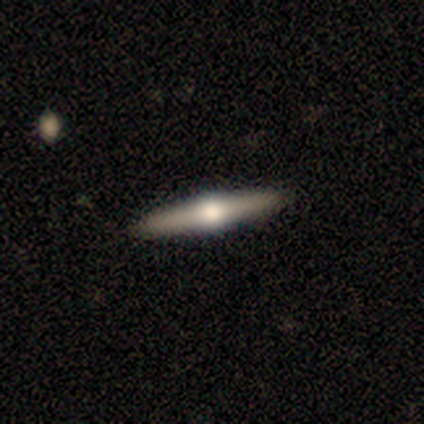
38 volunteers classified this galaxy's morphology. A featured or disk galaxy (87%) viewed edge-on (100%) with a rounded central bulge (97%). Merging: none (63%).